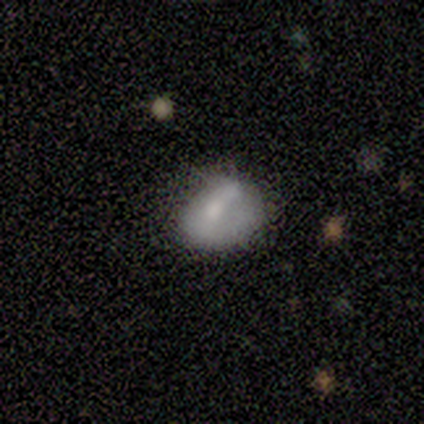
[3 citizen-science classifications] Smooth or featured?
  - smooth: 67% *
  - featured or disk: 33%
  - star or artifact: 0%
How rounded?
  - in between: 100% *
  - round: 0%
  - cigar-shaped: 0%
Merging?
  - none: 33% * (tied)
  - minor disturbance: 33% * (tied)
  - major disturbance: 33% * (tied)
  - merger: 0%